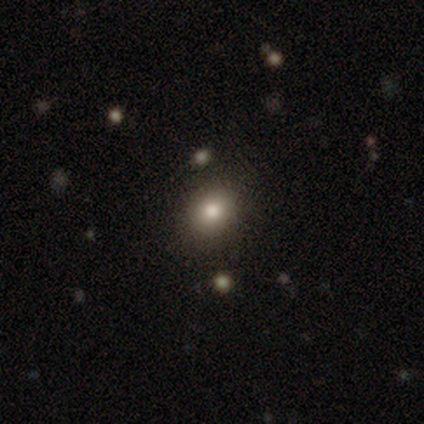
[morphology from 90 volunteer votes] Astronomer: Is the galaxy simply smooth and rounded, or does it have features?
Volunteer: smooth — 71%.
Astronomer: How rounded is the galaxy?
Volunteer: round — 59% (runner-up: in between, 41%).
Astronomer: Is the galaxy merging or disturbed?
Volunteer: none — 88%.